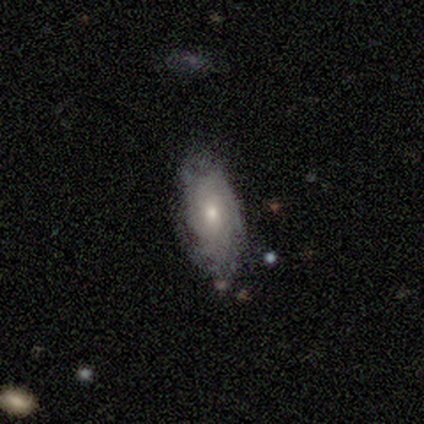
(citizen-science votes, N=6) Morphology: type=smooth (50%, tied with featured or disk); roundness=in between (100%); merging=none (100%).